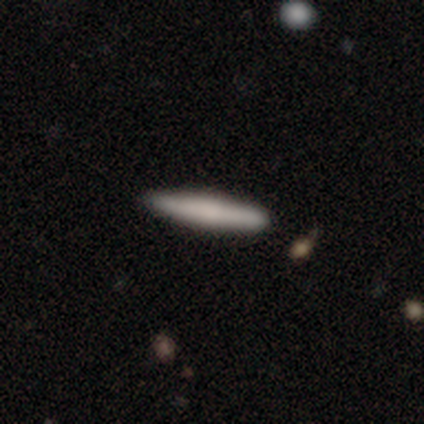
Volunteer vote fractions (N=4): smooth_or_featured: smooth (p=0.75) [alt: featured or disk p=0.25]
how_rounded: cigar-shaped (p=1.00)
merging: none (p=0.75) [alt: minor disturbance p=0.25]